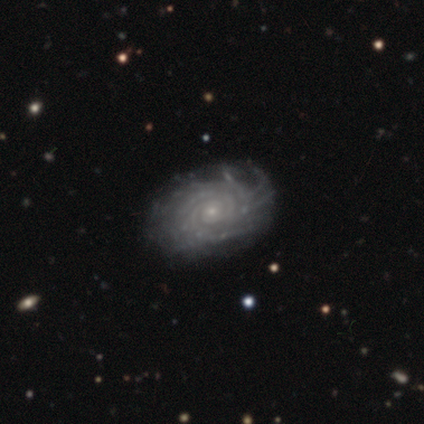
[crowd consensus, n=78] Volunteers were most divided on "spiral arm count": more than 4: 45%, can't tell: 33%, 3: 8%, 4: 8%, 2: 5%, 1: 0%. Remaining: spiral arms — yes (100%); edge-on disk — no (99%); smooth or featured — featured or disk (97%); bar — no (87%); bulge size — small (83%); spiral winding — tight (81%); merging — none (44%).